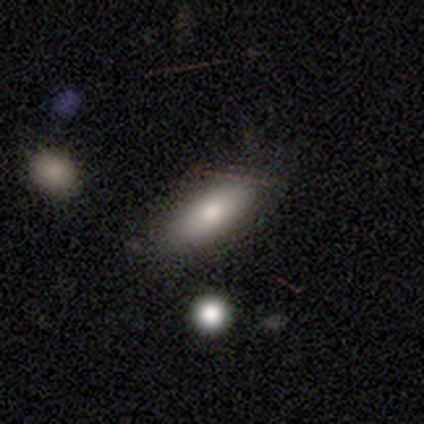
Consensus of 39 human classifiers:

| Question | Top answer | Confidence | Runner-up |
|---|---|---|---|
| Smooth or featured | smooth | 72% | featured or disk (21%) |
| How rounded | in between | 75% | cigar-shaped (25%) |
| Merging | none | 81% | minor disturbance (17%) |